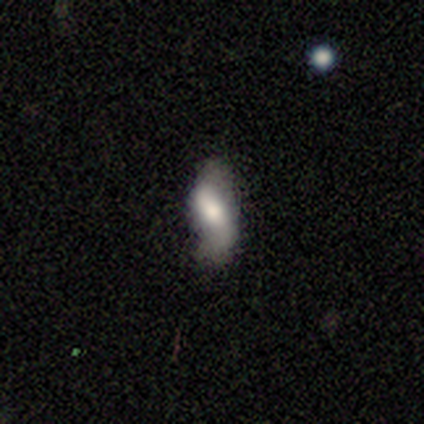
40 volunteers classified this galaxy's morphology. Smooth or featured? featured or disk (48%)
Edge-on disk? no (95%)
Bar? no (39%)
Spiral arms? yes (89%)
Spiral winding? loose (81%)
Spiral arm count? 2 (88%)
Bulge size? moderate (39%)
Merging? none (73%)